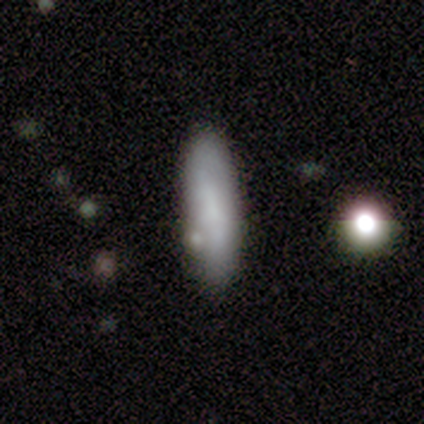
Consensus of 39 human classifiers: Smooth or featured? 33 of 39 (85%) said smooth. How rounded? 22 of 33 (67%) said cigar-shaped. Merging? 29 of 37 (78%) said none.